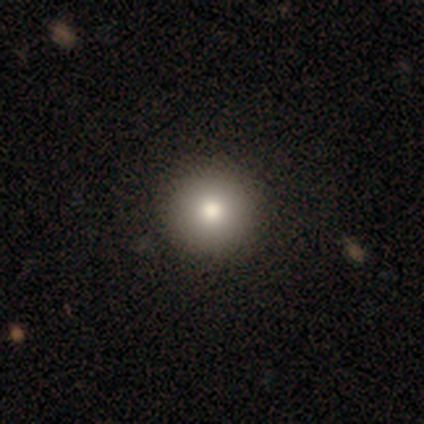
Volunteers were most divided on "smooth or featured": smooth: 80%, featured or disk: 20%, star or artifact: 0%. More confident: how rounded — round (100%); merging — none (80%).